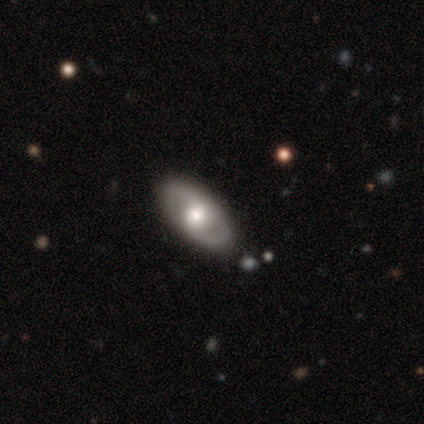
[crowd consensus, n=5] Morphology: type=featured or disk (80%); edge-on=no (100%); bar=no (50%); spiral arms=yes (75%); winding=tight (33%, tied with medium and loose); arm count=can't tell (67%); bulge=moderate (75%); merging=none (100%).